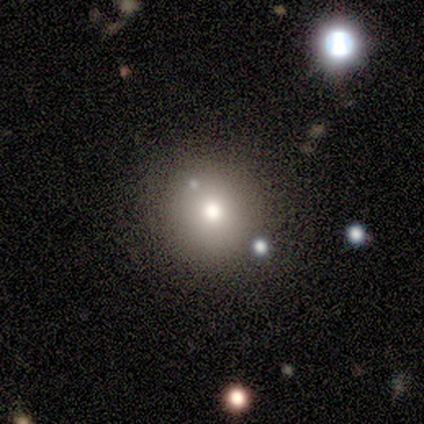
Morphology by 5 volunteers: A smooth galaxy with no disk features (80%) that is round (75%).

Vote fractions:
- Smooth or featured? smooth: 80% / star or artifact: 20% / featured or disk: 0%
- How rounded? round: 75% / in between: 25% / cigar-shaped: 0%
- Merging? none: 100% / minor disturbance: 0% / major disturbance: 0% / merger: 0%